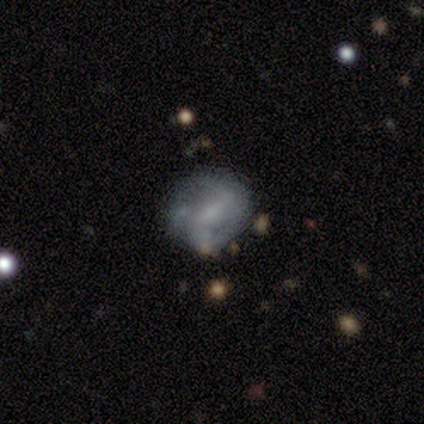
This appears to be a featured or disk galaxy (70%) with no bar (48%), 2 (46%) loose (46%) spiral arms (52%) and a small central bulge (36%). Merging: minor disturbance (44%).